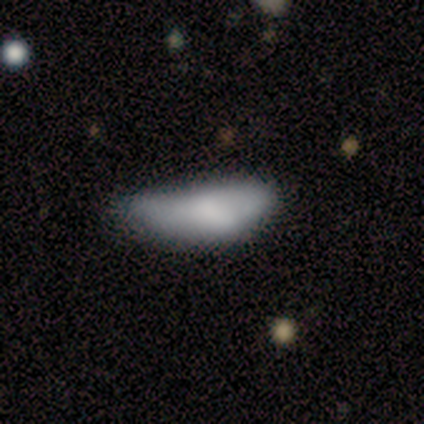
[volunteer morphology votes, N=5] Volunteers were most divided on "how rounded": in between: 60%, cigar-shaped: 40%, round: 0%. More confident: smooth or featured — smooth (100%); merging — minor disturbance (60%).